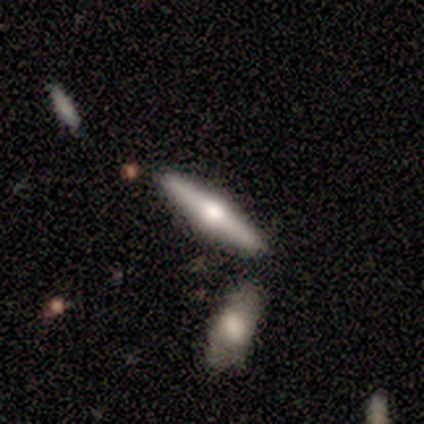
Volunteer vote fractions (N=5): Smooth or featured? featured or disk (100%)
Edge-on disk? yes (100%)
Edge-on bulge? rounded (100%)
Merging? none (80%)